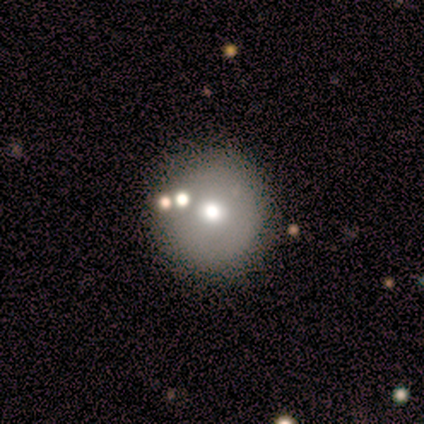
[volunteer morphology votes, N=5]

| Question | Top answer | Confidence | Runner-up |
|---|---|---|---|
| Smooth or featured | smooth | 80% | featured or disk (20%) |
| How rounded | round | 75% | in between (25%) |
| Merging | none | 80% | minor disturbance (20%) |